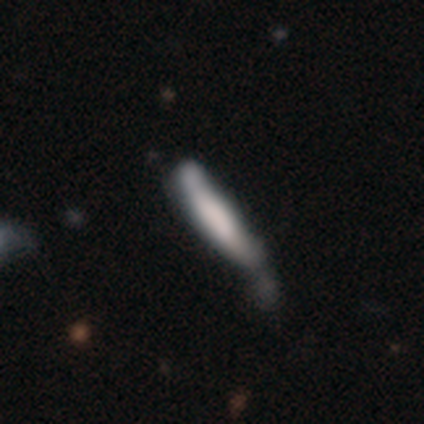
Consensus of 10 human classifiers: Q: Smooth or featured?
A: smooth (50%); tied with: featured or disk (50%)
Q: How rounded?
A: cigar-shaped (80%); runner-up: in between (20%)
Q: Merging?
A: minor disturbance (50%); runner-up: none (20%)